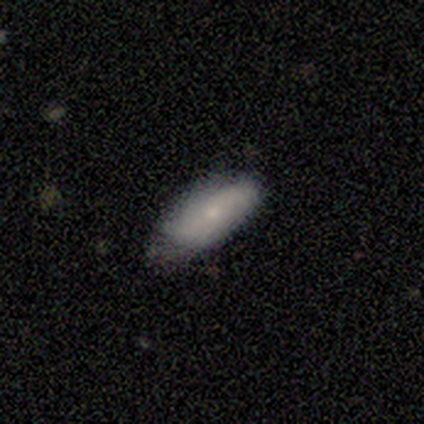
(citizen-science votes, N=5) Smooth or featured?
  - smooth: 80% *
  - featured or disk: 20%
  - star or artifact: 0%
How rounded?
  - in between: 100% *
  - round: 0%
  - cigar-shaped: 0%
Merging?
  - none: 80% *
  - minor disturbance: 20%
  - major disturbance: 0%
  - merger: 0%